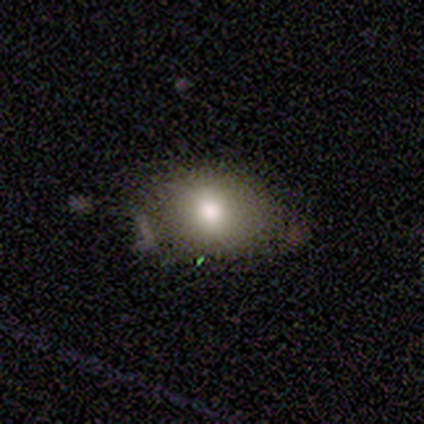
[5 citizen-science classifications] This appears to be a smooth galaxy with no disk features (60%) that is in between round and cigar-shaped (67%). Merging: none (67%).